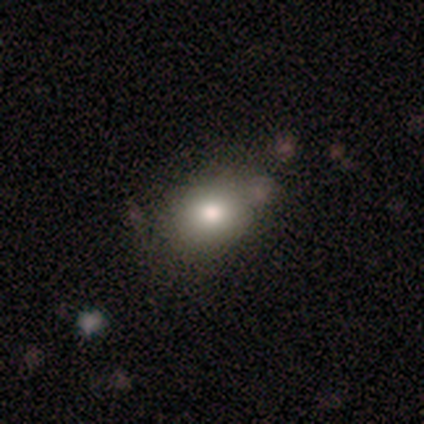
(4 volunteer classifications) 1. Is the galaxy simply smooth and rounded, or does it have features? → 100% smooth, 0% featured or disk, 0% star or artifact.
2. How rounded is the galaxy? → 50% round (tied), 50% in between (tied), 0% cigar-shaped.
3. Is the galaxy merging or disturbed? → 100% none, 0% minor disturbance, 0% major disturbance, 0% merger.